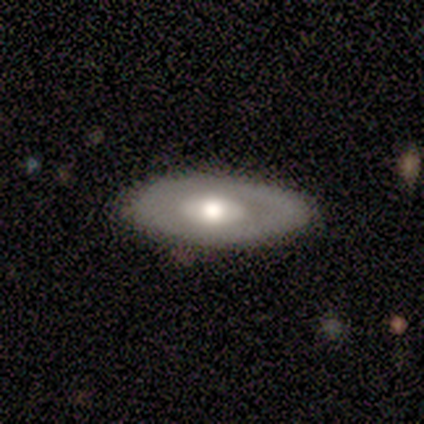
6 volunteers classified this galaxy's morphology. A featured or disk galaxy (83%) with no bar (100%), no spiral arms (100%) and a moderate central bulge (60%).

Vote fractions:
- Smooth or featured? featured or disk: 83% / smooth: 17% / star or artifact: 0%
- Edge-on disk? no: 100% / yes: 0%
- Bar? no: 100% / strong: 0% / weak: 0%
- Spiral arms? no: 100% / yes: 0%
- Bulge size? moderate: 60% / large: 40% / dominant: 0% / small: 0% / none: 0%
- Merging? none: 83% / minor disturbance: 17% / major disturbance: 0% / merger: 0%